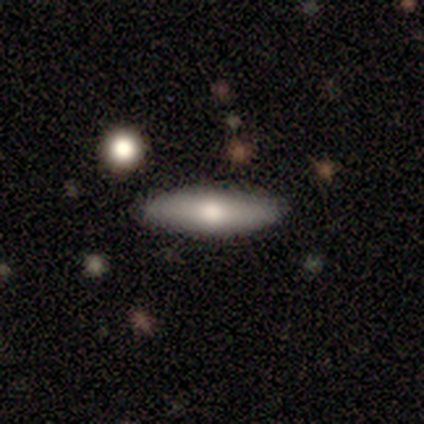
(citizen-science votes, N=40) Smooth or featured: smooth — 68% (featured or disk — 28%)
How rounded: cigar-shaped — 70% (in between — 30%)
Merging: none — 84% (minor disturbance — 13%)